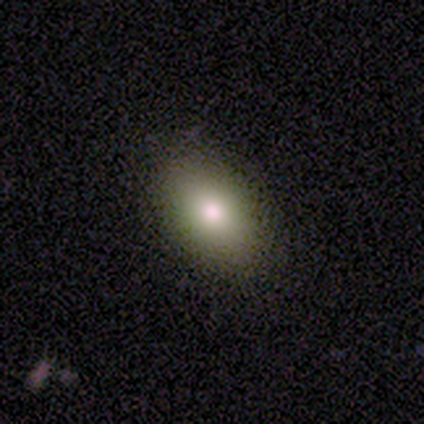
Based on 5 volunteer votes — Smooth or featured? smooth (80%)
How rounded? in between (100%)
Merging? none (75%)